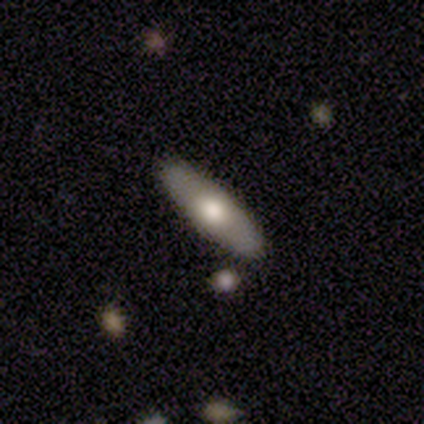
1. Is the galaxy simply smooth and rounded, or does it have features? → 80% smooth, 20% featured or disk, 0% star or artifact.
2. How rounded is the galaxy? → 75% in between, 25% cigar-shaped, 0% round.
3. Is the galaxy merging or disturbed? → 80% none, 20% major disturbance, 0% minor disturbance, 0% merger.